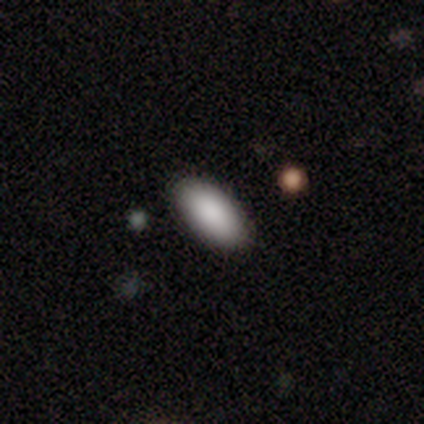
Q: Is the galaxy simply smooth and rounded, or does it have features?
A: smooth — 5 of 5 (100%).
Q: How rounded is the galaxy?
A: in between — 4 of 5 (80%).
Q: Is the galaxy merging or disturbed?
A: none — 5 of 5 (100%).